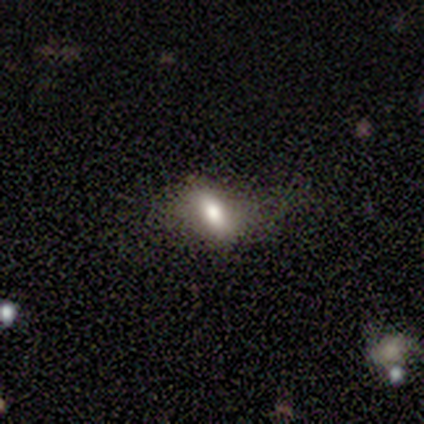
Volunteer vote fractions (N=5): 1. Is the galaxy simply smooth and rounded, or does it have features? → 80% smooth, 20% featured or disk, 0% star or artifact.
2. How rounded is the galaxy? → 100% in between, 0% round, 0% cigar-shaped.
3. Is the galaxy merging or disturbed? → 80% none, 20% minor disturbance, 0% major disturbance, 0% merger.